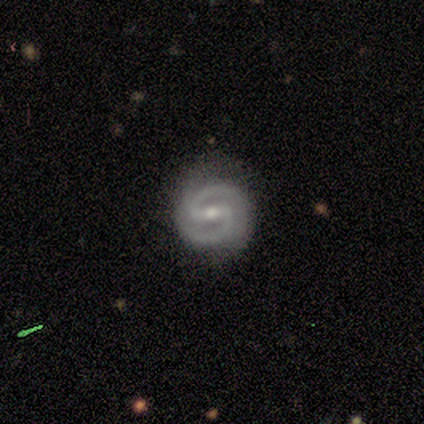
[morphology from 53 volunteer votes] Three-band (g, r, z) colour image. It shows a featured or disk galaxy (89%) with a strong bar (55%), 2 (100%) medium (56%) spiral arms (98%) and a moderate central bulge (55%). Merging: none (88%).